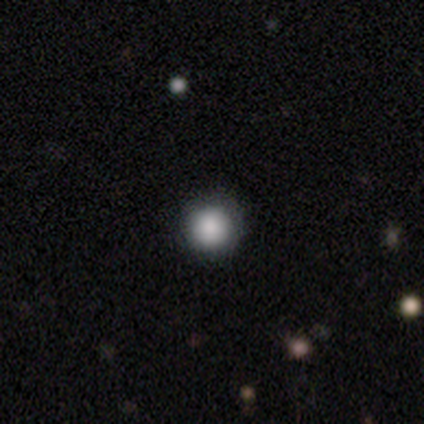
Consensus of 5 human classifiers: smooth_or_featured: smooth (p=1.00)
how_rounded: round (p=1.00)
merging: none (p=1.00)